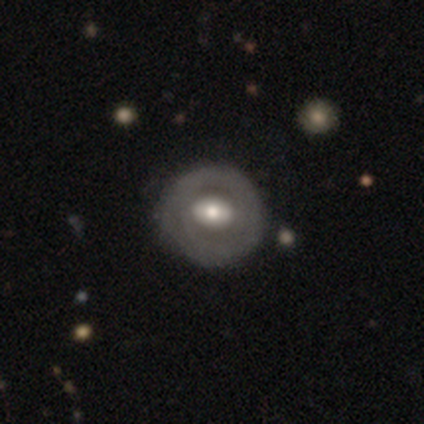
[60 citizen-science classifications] Morphology: type=smooth (78%); roundness=in between (89%); merging=minor disturbance (70%).